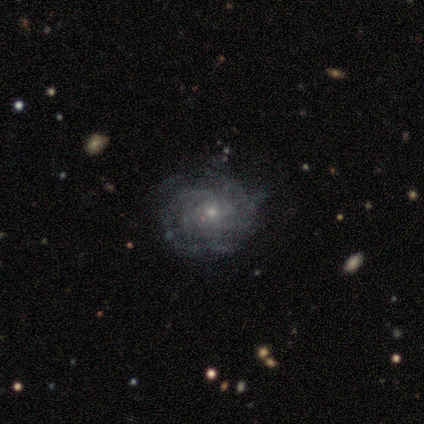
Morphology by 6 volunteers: Overall: featured or disk (100%). Edge-on disk: no (100%). Bar: no (67%; weak 33%). Spiral arms: yes (100%). Spiral arm count: can't tell (83%). Spiral winding: tight (50%; medium 33%). Bulge size: small (67%; moderate 33%). Merging: none (83%).